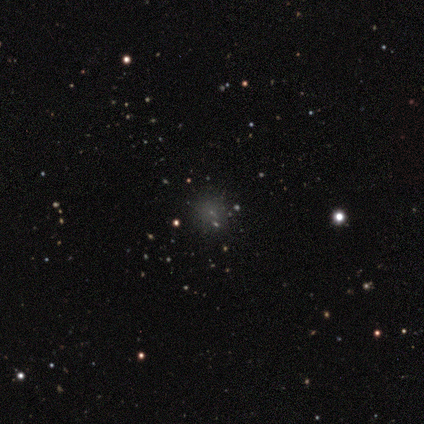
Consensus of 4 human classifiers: A star or artifact, not a galaxy (50%).

Vote fractions:
- Smooth or featured? star or artifact: 50% / smooth: 25% / featured or disk: 25%